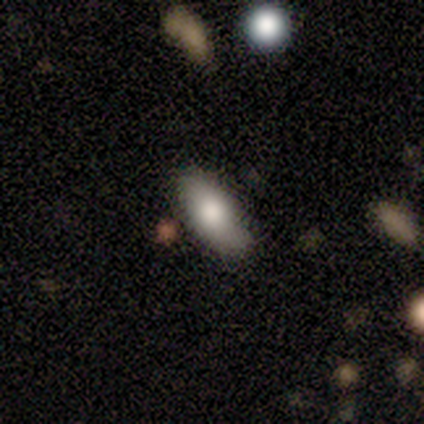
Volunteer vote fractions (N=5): This appears to be a smooth galaxy with no disk features (80%) that is in between round and cigar-shaped (100%). Merging: none (80%).